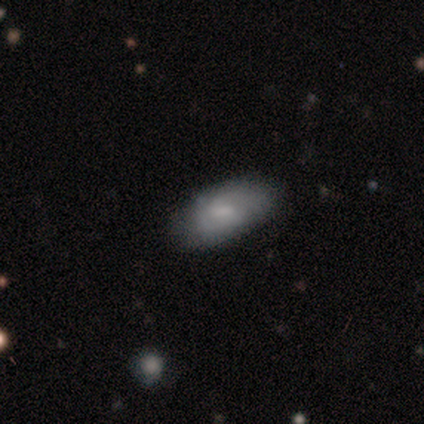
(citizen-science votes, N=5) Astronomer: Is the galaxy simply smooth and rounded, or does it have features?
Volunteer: featured or disk — 60% (runner-up: smooth, 40%).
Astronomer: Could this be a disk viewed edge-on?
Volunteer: no — 100%.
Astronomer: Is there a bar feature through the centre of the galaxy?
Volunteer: no — 67%.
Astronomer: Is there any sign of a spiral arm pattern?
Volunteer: yes — 67%.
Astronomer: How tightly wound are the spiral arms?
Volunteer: medium — 50%, tied with loose at 50%.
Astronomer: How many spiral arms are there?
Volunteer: can't tell — 100%.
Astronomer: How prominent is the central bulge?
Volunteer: small — 67%.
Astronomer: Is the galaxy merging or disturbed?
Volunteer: none — 80%.